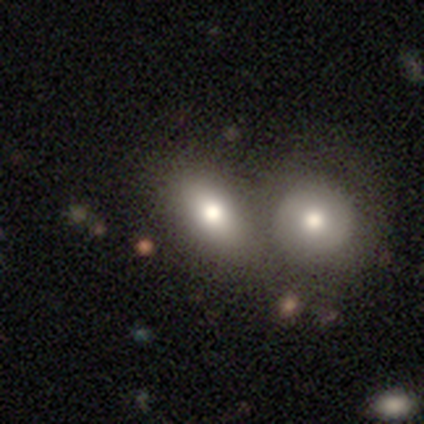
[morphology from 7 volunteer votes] Overall: smooth (71%). How rounded: in between (80%). Merging: merger (86%).